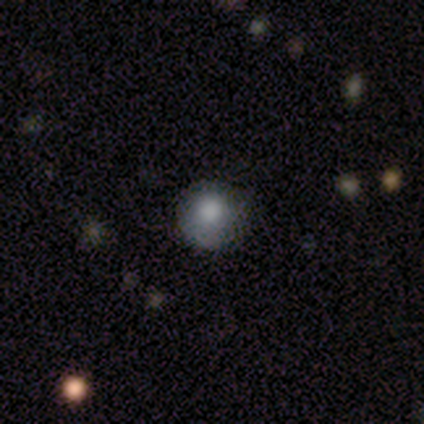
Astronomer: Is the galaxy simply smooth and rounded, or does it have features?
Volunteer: smooth — 80%.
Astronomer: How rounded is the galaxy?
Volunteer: round — 100%.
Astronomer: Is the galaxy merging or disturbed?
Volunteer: none — 80%.